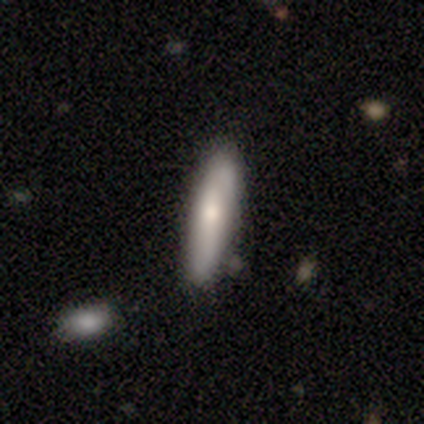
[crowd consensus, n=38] Morphology: type=smooth (61%); roundness=cigar-shaped (78%); merging=none (75%).